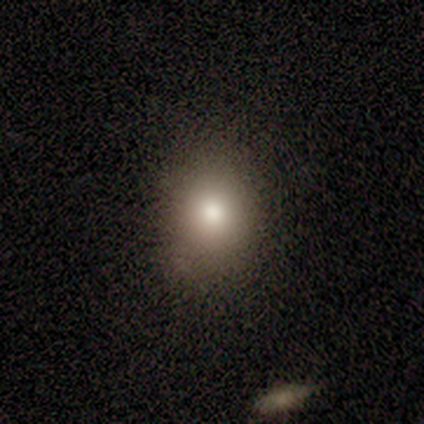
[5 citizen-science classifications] A smooth galaxy with no disk features (100%) that is round (60%).

Vote fractions:
- Smooth or featured? smooth: 100% / featured or disk: 0% / star or artifact: 0%
- How rounded? round: 60% / in between: 40% / cigar-shaped: 0%
- Merging? none: 60% / minor disturbance: 40% / major disturbance: 0% / merger: 0%